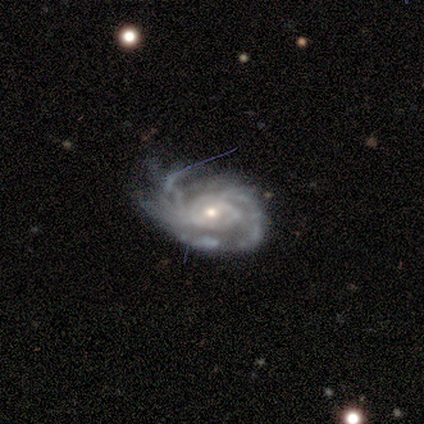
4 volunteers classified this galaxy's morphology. Volunteers were most divided on "bulge size" (2-way tie): moderate: 50%, small: 50%, dominant: 0%, large: 0%, none: 0%. More confident: smooth or featured — featured or disk (100%); edge-on disk — no (100%); bar — no (100%); spiral arm count — can't tell (100%); spiral arms — yes (75%); spiral winding — tight (67%); merging — none (50%).